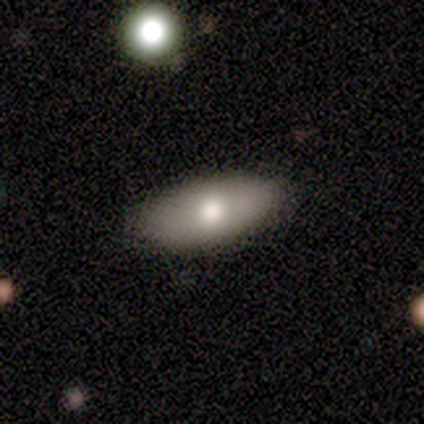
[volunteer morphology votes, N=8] Smooth or featured? smooth (88%)
How rounded? in between (100%)
Merging? none (100%)